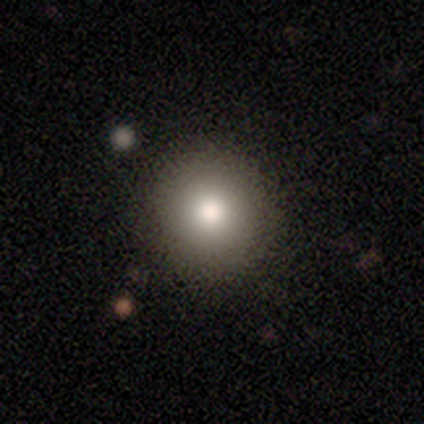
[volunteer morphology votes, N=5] Overall: smooth (100%). How rounded: round (100%). Merging: none (100%).